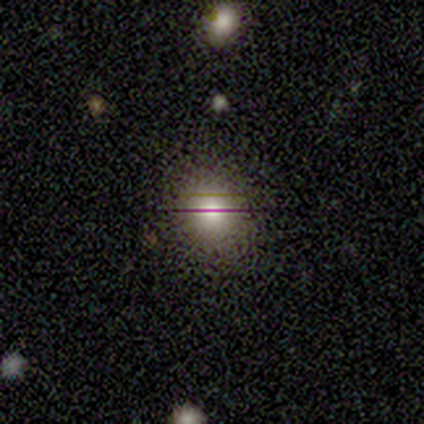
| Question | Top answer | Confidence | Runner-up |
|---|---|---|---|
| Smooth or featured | smooth | 40% | tied: featured or disk (40%) |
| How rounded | round | 50% | tied: in between (50%) |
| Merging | none | 75% | minor disturbance (25%) |